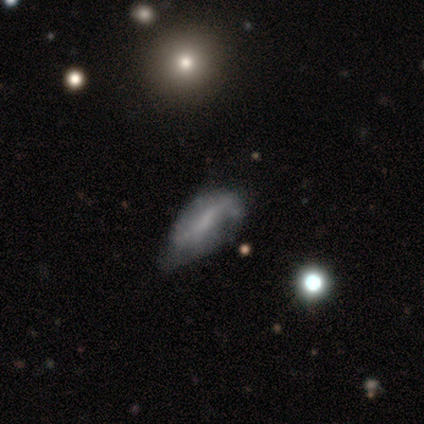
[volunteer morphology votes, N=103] type=featured or disk (50%); edge-on=no (88%); bar=weak (47%); spiral arms=yes (53%); winding=loose (54%); arm count=2 (79%); bulge=none (38%); merging=minor disturbance (46%).